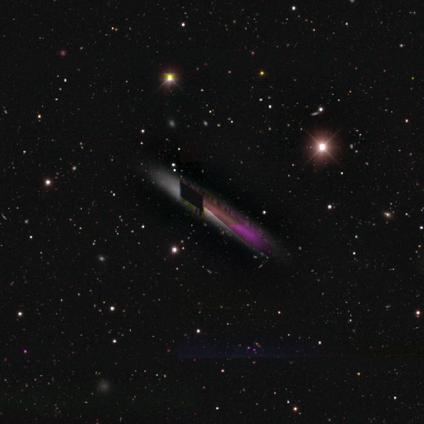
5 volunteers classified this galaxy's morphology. Smooth or featured? 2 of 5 (40%, tied with star or artifact) said smooth. How rounded? 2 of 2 (100%) said cigar-shaped. Merging? 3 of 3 (100%) said none.